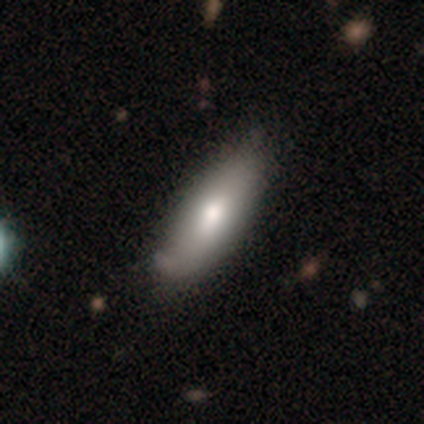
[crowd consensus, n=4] Q: Smooth or featured?
A: smooth (100%)
Q: How rounded?
A: in between (75%); runner-up: cigar-shaped (25%)
Q: Merging?
A: none (50%); runner-up: minor disturbance (25%)